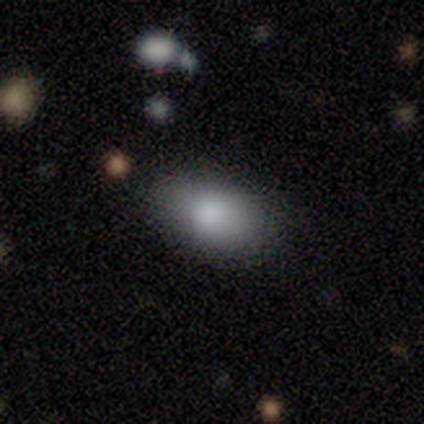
A smooth galaxy with no disk features (83%) that is in between round and cigar-shaped (80%).

Vote fractions:
- Smooth or featured? smooth: 83% / star or artifact: 17% / featured or disk: 0%
- How rounded? in between: 80% / cigar-shaped: 20% / round: 0%
- Merging? none: 60% / minor disturbance: 40% / major disturbance: 0% / merger: 0%